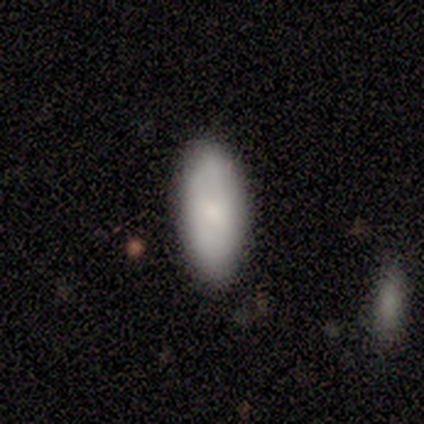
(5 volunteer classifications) This is clearly a smooth galaxy (80%). How rounded: possibly in between (50%, tied with cigar-shaped). Merging: clearly none (100%).